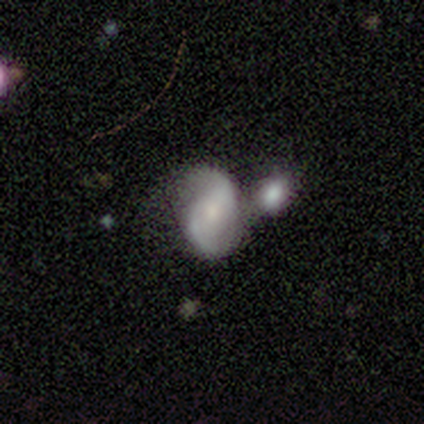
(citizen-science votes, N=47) A featured or disk galaxy (74%) with no bar (66%), 2 (100%) loose (62%) spiral arms (91%) and a small central bulge (43%). Merging: merger (52%).